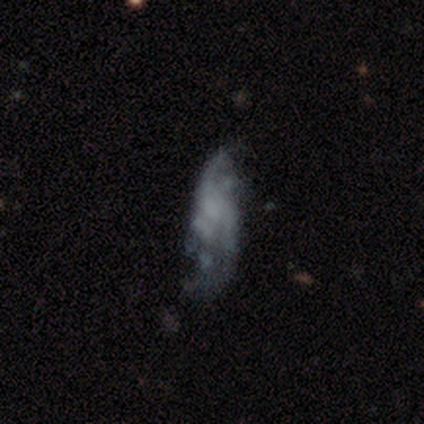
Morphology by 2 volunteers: smooth-or-featured: featured or disk: 50% (tied) | star or artifact: 50% (tied) | smooth: 0%
  disk-edge-on: no: 100% | yes: 0%
    bar: no: 100% | strong: 0% | weak: 0%
    has-spiral-arms: no: 100% | yes: 0%
    bulge-size: none: 100% | dominant: 0% | large: 0% | moderate: 0% | small: 0%
  merging: none: 100% | minor disturbance: 0% | major disturbance: 0% | merger: 0%